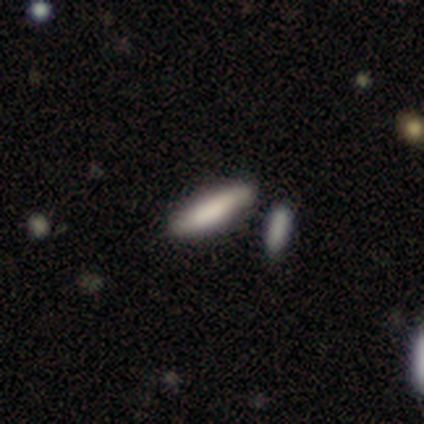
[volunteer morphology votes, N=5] Smooth or featured? smooth (80%)
How rounded? cigar-shaped (100%)
Merging? none (80%)